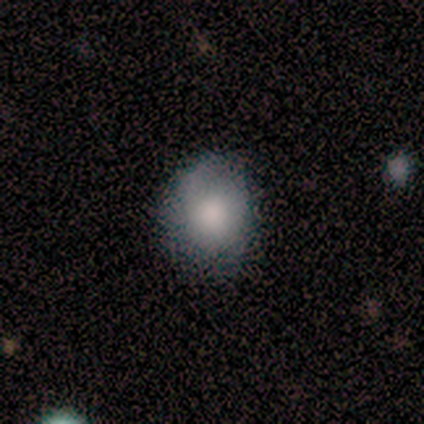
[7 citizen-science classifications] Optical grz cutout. It shows a smooth galaxy with no disk features (86%) that is round (67%). Merging: none (57%).